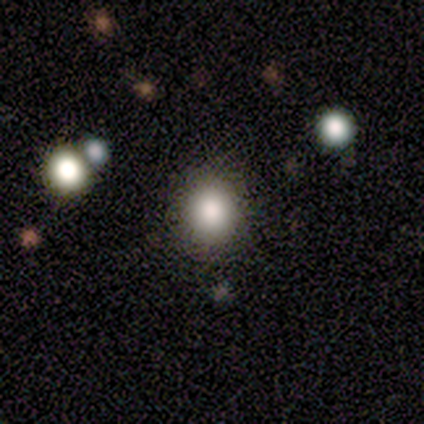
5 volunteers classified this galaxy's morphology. A smooth galaxy with no disk features (80%) that is round (75%).

Vote fractions:
- Smooth or featured? smooth: 80% / star or artifact: 20% / featured or disk: 0%
- How rounded? round: 75% / in between: 25% / cigar-shaped: 0%
- Merging? none: 75% / minor disturbance: 25% / major disturbance: 0% / merger: 0%